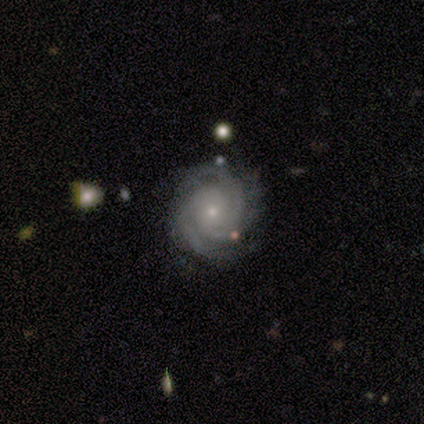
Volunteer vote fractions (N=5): This is clearly a featured or disk galaxy (80%). It is clearly not viewed edge-on (100%). Bar: likely no (75%). Spiral arm pattern: clearly yes (100%). Spiral arm count: clearly 3 (100%). Spiral winding: likely medium (75%). Central bulge: possibly moderate (50%, tied with small). Merging: possibly none (50%).